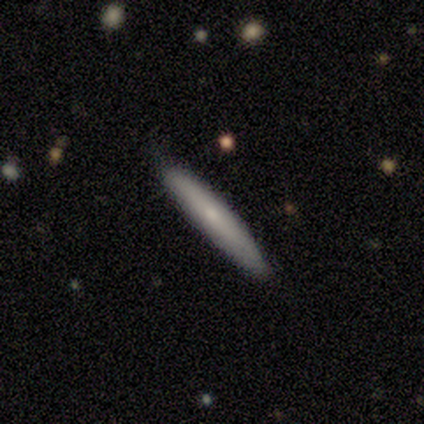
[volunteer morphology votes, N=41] This appears to be a smooth galaxy with no disk features (73%) that is cigar-shaped (93%). Merging: none (78%).